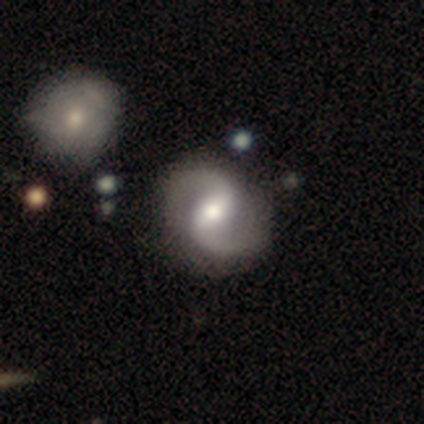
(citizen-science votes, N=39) Volunteers were most divided on "bar": weak: 50%, strong: 37%, no: 13%. More confident: smooth or featured — featured or disk (100%); spiral arms — yes (100%); spiral arm count — 2 (100%); edge-on disk — no (97%); bulge size — moderate (71%); merging — none (69%); spiral winding — loose (61%).